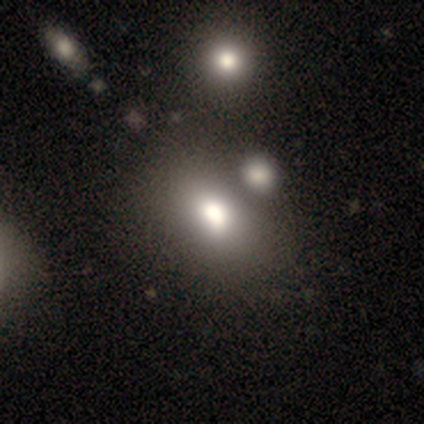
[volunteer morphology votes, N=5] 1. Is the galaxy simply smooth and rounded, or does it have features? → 40% smooth (tied), 40% featured or disk (tied), 20% star or artifact.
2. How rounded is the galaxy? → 50% round (tied), 50% in between (tied), 0% cigar-shaped.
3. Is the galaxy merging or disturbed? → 50% none (tied), 50% merger (tied), 0% minor disturbance, 0% major disturbance.